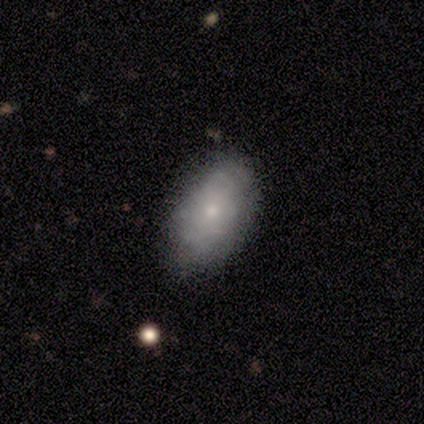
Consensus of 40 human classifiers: Smooth or featured? 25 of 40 (62%) said smooth. How rounded? 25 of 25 (100%) said in between. Merging? 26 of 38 (68%) said none.